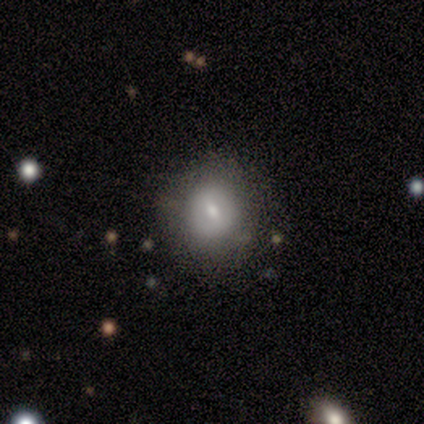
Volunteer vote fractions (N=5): smooth_or_featured: featured or disk (p=0.60) [alt: smooth p=0.40]
disk_edge_on: no (p=1.00)
bar: weak (p=0.67) [alt: no p=0.33]
has_spiral_arms: no (p=0.67) [alt: yes p=0.33]
bulge_size: small (p=0.67) [alt: moderate p=0.33]
merging: none (p=1.00)